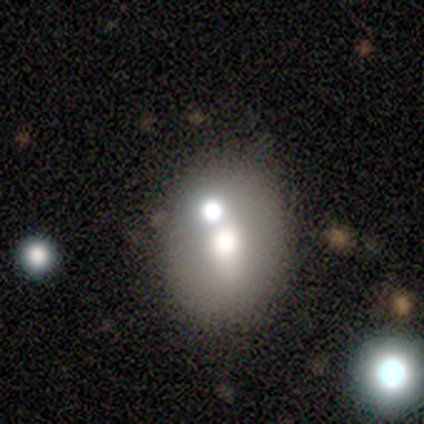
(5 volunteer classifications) A smooth galaxy with no disk features (60%) that is in between round and cigar-shaped (67%).

Vote fractions:
- Smooth or featured? smooth: 60% / featured or disk: 40% / star or artifact: 0%
- How rounded? in between: 67% / round: 33% / cigar-shaped: 0%
- Merging? none: 60% / minor disturbance: 20% / merger: 20% / major disturbance: 0%